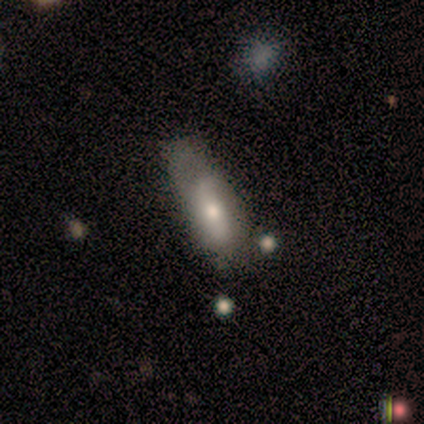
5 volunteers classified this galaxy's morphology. smooth_or_featured: smooth (p=0.80) [alt: star or artifact p=0.20]
how_rounded: in between (p=0.75) [alt: cigar-shaped p=0.25]
merging: none (p=0.50) [tied with: major disturbance p=0.50]